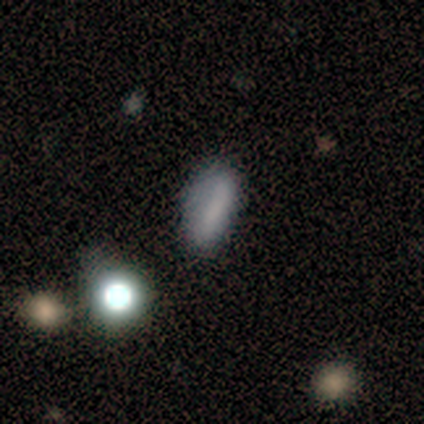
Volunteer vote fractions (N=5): Smooth or featured? 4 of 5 (80%) said smooth. How rounded? 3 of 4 (75%) said in between. Merging? 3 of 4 (75%) said none.